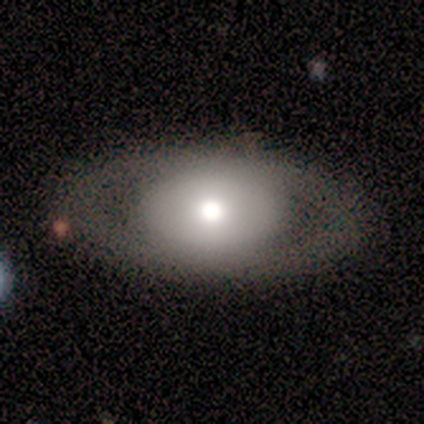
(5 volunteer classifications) Morphology: type=featured or disk (60%); edge-on=no (100%); bar=no (100%); spiral arms=no (100%); bulge=large (33%, tied with moderate and none); merging=none (100%).